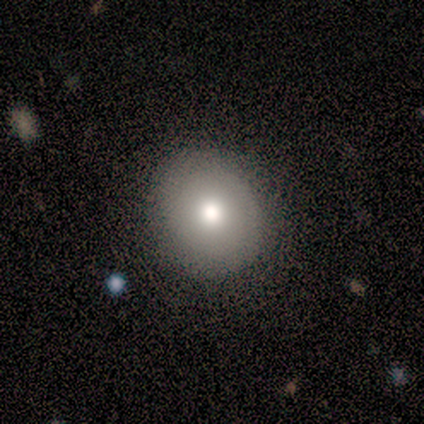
Smooth or featured: smooth — 60% (featured or disk — 40%)
How rounded: round — 100%
Merging: none — 80% (minor disturbance — 20%)